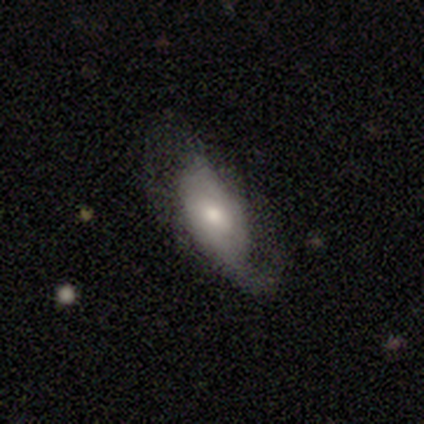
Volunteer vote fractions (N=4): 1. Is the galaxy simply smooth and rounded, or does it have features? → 50% featured or disk, 25% smooth, 25% star or artifact.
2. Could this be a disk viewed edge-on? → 100% no, 0% yes.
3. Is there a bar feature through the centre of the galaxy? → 100% no, 0% strong, 0% weak.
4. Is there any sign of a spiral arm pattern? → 100% yes, 0% no.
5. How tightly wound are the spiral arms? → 100% medium, 0% tight, 0% loose.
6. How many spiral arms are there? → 50% 2 (tied), 50% can't tell (tied), 0% 1, 0% 3, 0% 4, 0% more than 4.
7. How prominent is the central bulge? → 100% small, 0% dominant, 0% large, 0% moderate, 0% none.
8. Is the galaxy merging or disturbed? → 67% none, 33% major disturbance, 0% minor disturbance, 0% merger.